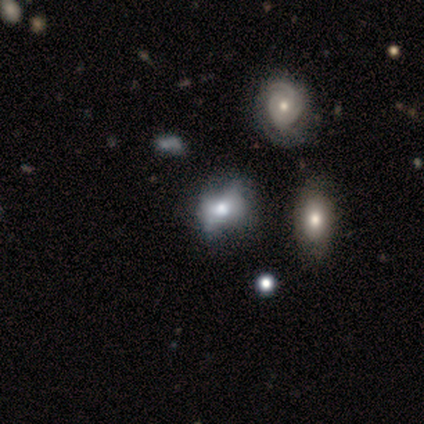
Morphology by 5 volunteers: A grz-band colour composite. It shows a smooth galaxy with no disk features (60%) that is in between round and cigar-shaped (100%). Merging: none (40%).